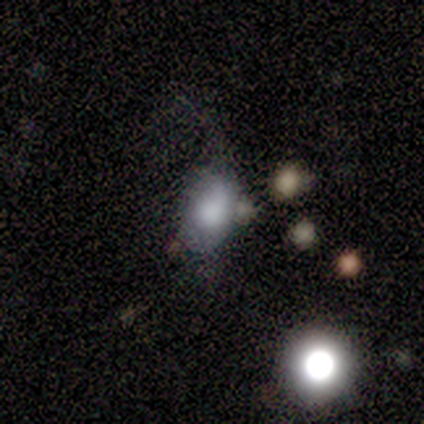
smooth-or-featured: smooth: 80% | featured or disk: 20% | star or artifact: 0%
  how-rounded: in between: 75% | round: 25% | cigar-shaped: 0%
  merging: none: 60% | minor disturbance: 20% | major disturbance: 20% | merger: 0%